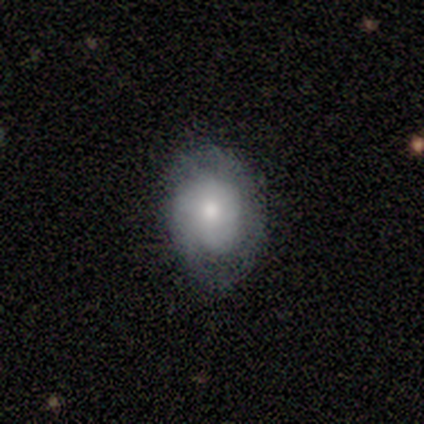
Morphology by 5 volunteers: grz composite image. It shows a featured or disk galaxy (80%) with no bar (75%), 3 (50%) tight (75%) spiral arms (100%) and a moderate central bulge (50%). Merging: none (80%).